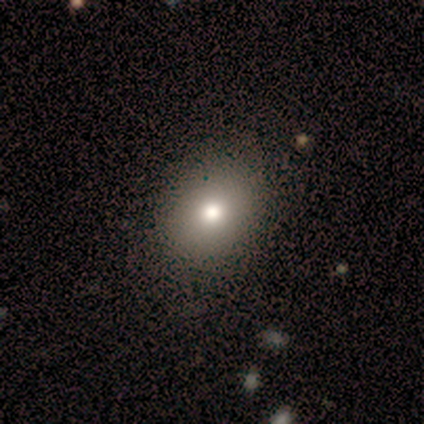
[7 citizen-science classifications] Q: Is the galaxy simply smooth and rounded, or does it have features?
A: smooth — 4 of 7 (57%).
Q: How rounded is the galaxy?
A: in between — 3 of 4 (75%).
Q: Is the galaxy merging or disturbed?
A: none — 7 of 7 (100%).